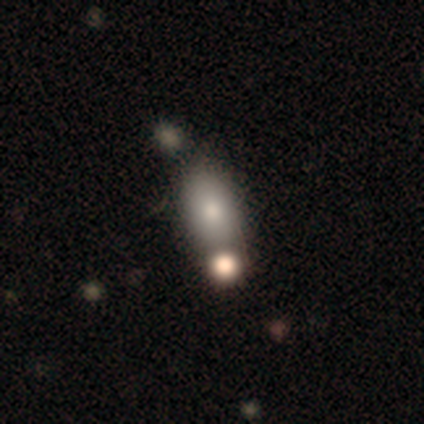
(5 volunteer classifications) Smooth or featured? 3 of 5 (60%) said smooth. How rounded? 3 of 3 (100%) said in between. Merging? 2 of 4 (50%, tied with merger) said none.